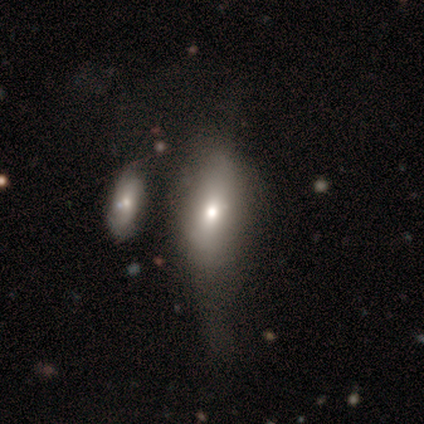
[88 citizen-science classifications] This is likely a smooth galaxy (69%). How rounded: clearly in between (85%). Merging: marginally minor disturbance (35%).